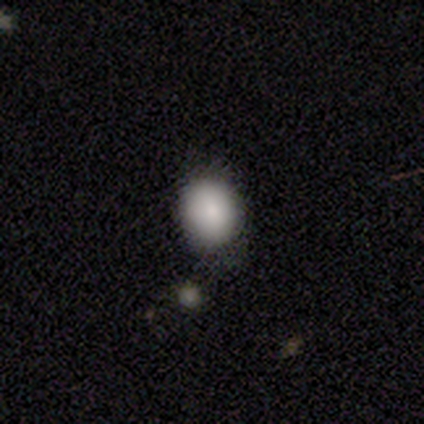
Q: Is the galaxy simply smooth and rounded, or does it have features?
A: smooth — 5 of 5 (100%).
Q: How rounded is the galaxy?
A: round — 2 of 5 (40%, tied with in between).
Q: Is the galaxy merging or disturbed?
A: none — 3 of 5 (60%).